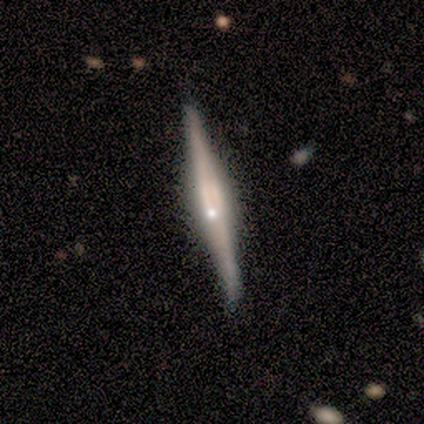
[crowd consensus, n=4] Q: Smooth or featured?
A: featured or disk (75%); runner-up: star or artifact (25%)
Q: Edge-on disk?
A: yes (100%)
Q: Edge-on bulge?
A: rounded (67%); runner-up: boxy (33%)
Q: Merging?
A: none (100%)